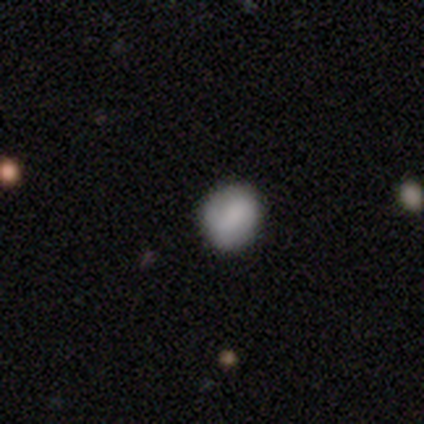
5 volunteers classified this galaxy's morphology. This appears to be a smooth galaxy with no disk features (80%) that is round (100%). Merging: none (75%).